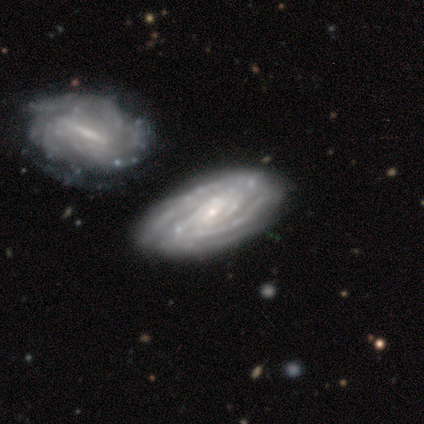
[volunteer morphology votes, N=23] A featured or disk galaxy (91%) with no bar (42%), tight (68%) spiral arms (100%) and a small central bulge (79%).

Vote fractions:
- Smooth or featured? featured or disk: 91% / smooth: 9% / star or artifact: 0%
- Edge-on disk? no: 90% / yes: 10%
- Bar? no: 42% / weak: 32% / strong: 26%
- Spiral arms? yes: 100% / no: 0%
- Spiral winding? tight: 68% / medium: 32% / loose: 0%
- Spiral arm count? can't tell: 47% / 2: 26% / 3: 16% / 4: 11% / 1: 0% / more than 4: 0%
- Bulge size? small: 79% / moderate: 11% / large: 5% / none: 5% / dominant: 0%
- Merging? none: 70% / merger: 17% / minor disturbance: 9% / major disturbance: 4%